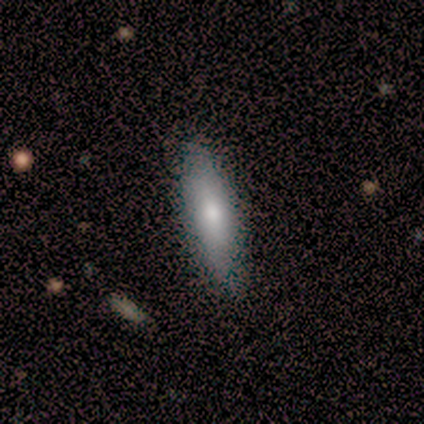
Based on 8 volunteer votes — smooth_or_featured: smooth (p=0.75) [alt: featured or disk p=0.25]
how_rounded: cigar-shaped (p=0.83) [alt: in between p=0.17]
merging: none (p=0.88) [alt: minor disturbance p=0.12]